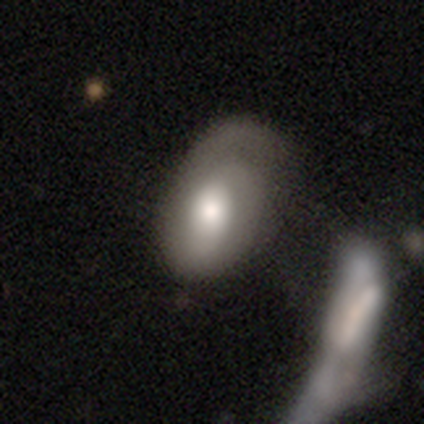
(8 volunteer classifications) Smooth or featured?
  - smooth: 75% *
  - featured or disk: 12%
  - star or artifact: 12%
How rounded?
  - in between: 83% *
  - round: 17%
  - cigar-shaped: 0%
Merging?
  - minor disturbance: 43% *
  - none: 29%
  - major disturbance: 29%
  - merger: 0%